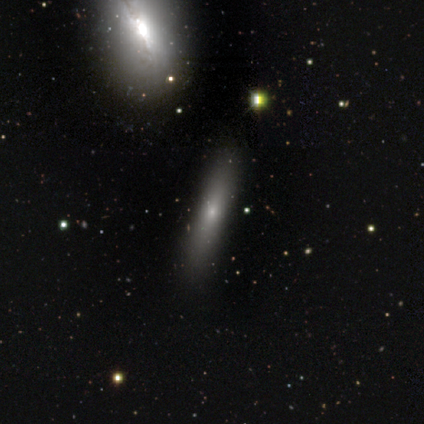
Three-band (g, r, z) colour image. It shows a smooth galaxy with no disk features (80%) that is cigar-shaped (100%). Merging: none (100%).